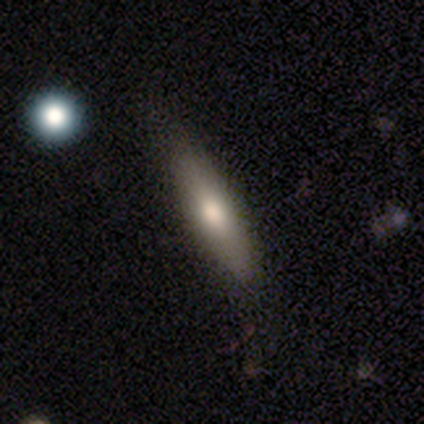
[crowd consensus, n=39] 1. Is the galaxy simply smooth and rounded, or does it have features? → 69% smooth, 23% featured or disk, 8% star or artifact.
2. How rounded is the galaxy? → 70% cigar-shaped, 30% in between, 0% round.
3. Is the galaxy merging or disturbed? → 89% none, 11% minor disturbance, 0% major disturbance, 0% merger.